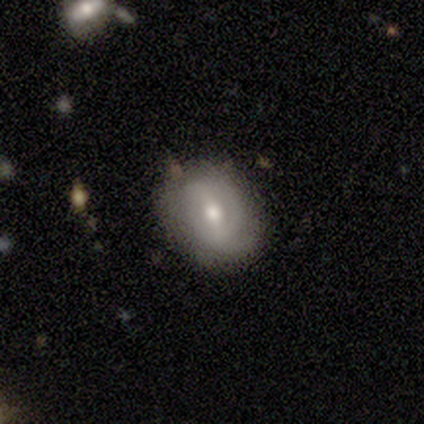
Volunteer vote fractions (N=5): featured or disk 100%, smooth 0%, star or artifact 0%. Down the decision tree: edge-on disk — no (100%); bar — weak (80%); spiral arms — yes (60%); spiral arm count — 2 (33%, tied with 3 and can't tell); spiral winding — medium (67%); bulge size — moderate (80%); merging — none (80%).